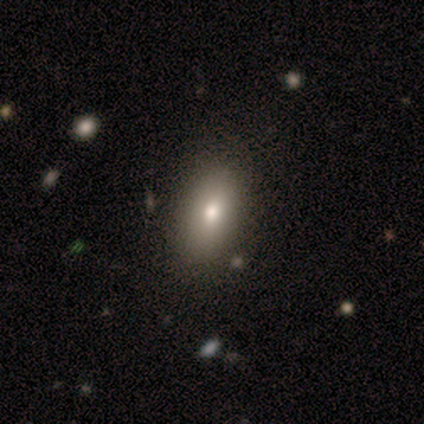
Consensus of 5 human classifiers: smooth 60%, featured or disk 40%, star or artifact 0%. Down the decision tree: how rounded — in between (67%); merging — none (80%).